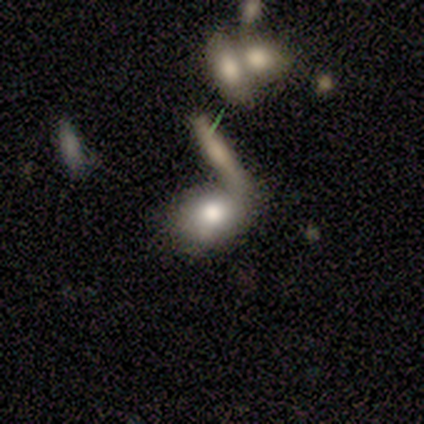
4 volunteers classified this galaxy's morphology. A smooth galaxy with no disk features (100%) that is in between round and cigar-shaped (100%). Merging: none (50%, tied with merger).